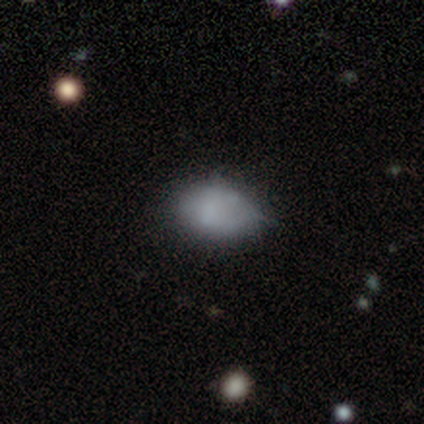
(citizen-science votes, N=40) A smooth galaxy with no disk features (78%) that is in between round and cigar-shaped (77%).

Vote fractions:
- Smooth or featured? smooth: 78% / featured or disk: 12% / star or artifact: 10%
- How rounded? in between: 77% / round: 23% / cigar-shaped: 0%
- Merging? none: 56% / minor disturbance: 39% / major disturbance: 3% / merger: 3%